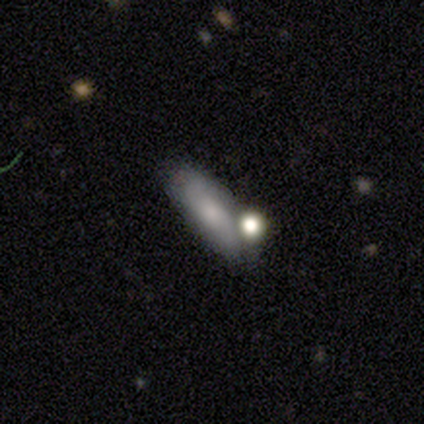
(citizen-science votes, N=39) Volunteers were most divided on "how rounded": in between: 59%, cigar-shaped: 41%, round: 0%. More confident: smooth or featured — smooth (69%); merging — none (58%).